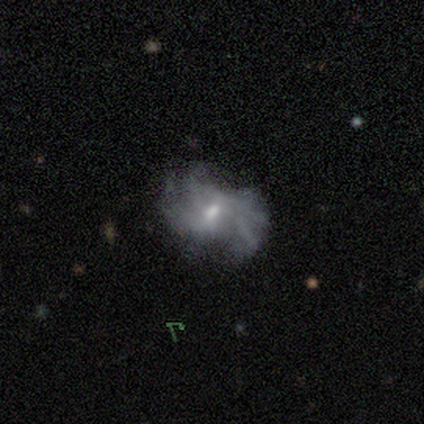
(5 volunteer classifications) Smooth or featured: smooth — 40% (tied with star or artifact — 40%)
How rounded: round — 50% (tied with in between — 50%)
Merging: major disturbance — 67% (none — 33%)